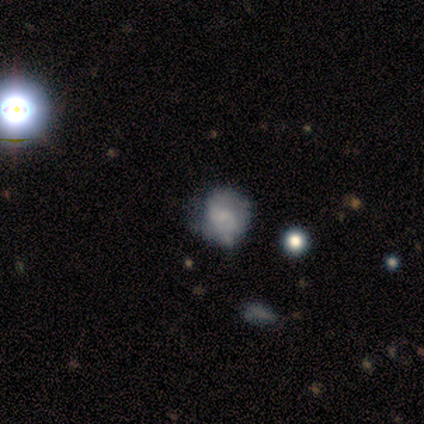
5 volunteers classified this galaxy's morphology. type=smooth (80%); roundness=round (50%, tied with in between); merging=none (80%).